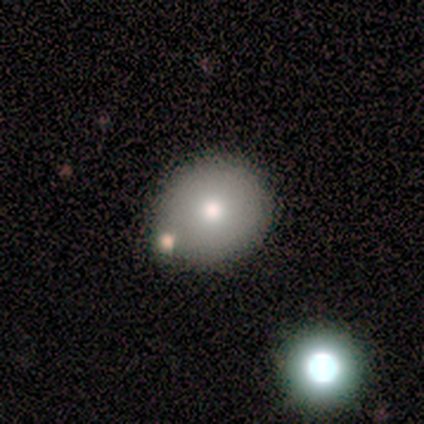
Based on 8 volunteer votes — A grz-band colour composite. It shows a smooth galaxy with no disk features (88%) that is round (71%). Merging: none (86%).